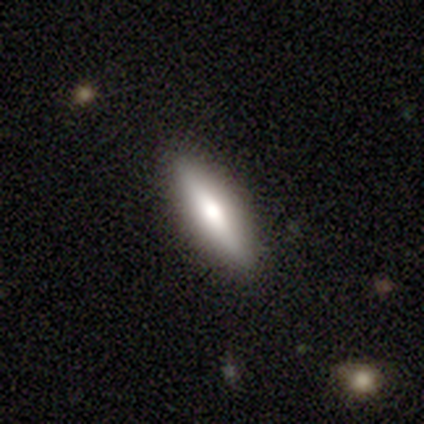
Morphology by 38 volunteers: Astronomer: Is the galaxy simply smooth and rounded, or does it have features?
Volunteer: smooth — 50% (runner-up: featured or disk, 47%).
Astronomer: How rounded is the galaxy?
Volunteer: cigar-shaped — 68%.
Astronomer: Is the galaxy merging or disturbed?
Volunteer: none — 89%.